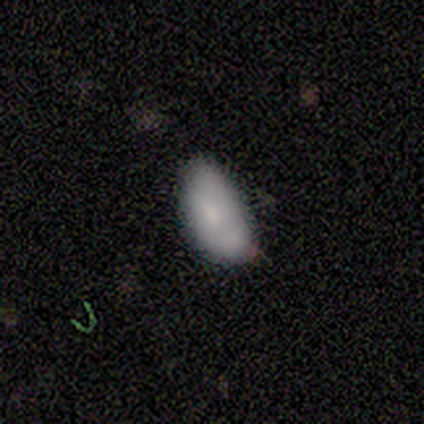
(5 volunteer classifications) Volunteers were most divided on "smooth or featured" (2-way tie): smooth: 40%, star or artifact: 40%, featured or disk: 20%. More confident: how rounded — in between (100%); merging — minor disturbance (67%).